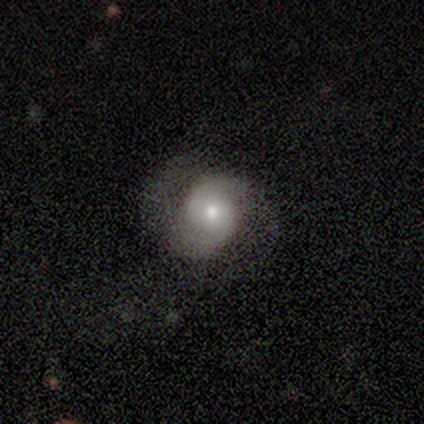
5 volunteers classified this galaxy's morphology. Volunteers were most divided on "bulge size" (2-way tie): moderate: 40%, small: 40%, large: 20%, dominant: 0%, none: 0%. More confident: smooth or featured — featured or disk (100%); edge-on disk — no (100%); spiral arms — yes (100%); spiral arm count — 2 (80%); bar — no (60%); merging — none (60%); spiral winding — tight (60%).